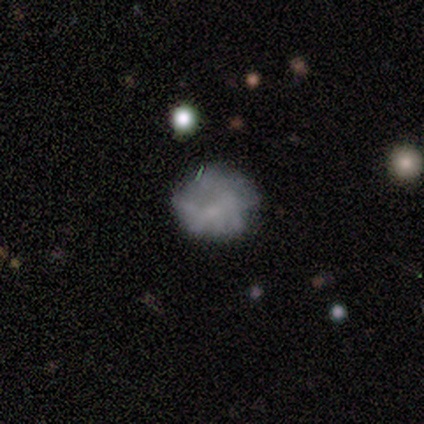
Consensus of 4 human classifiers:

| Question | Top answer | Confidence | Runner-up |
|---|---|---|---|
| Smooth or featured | featured or disk | 50% | smooth (25%) |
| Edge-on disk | no | 100% | — |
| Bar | no | 100% | — |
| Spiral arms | no | 100% | — |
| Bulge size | none | 100% | — |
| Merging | minor disturbance | 67% | none (33%) |